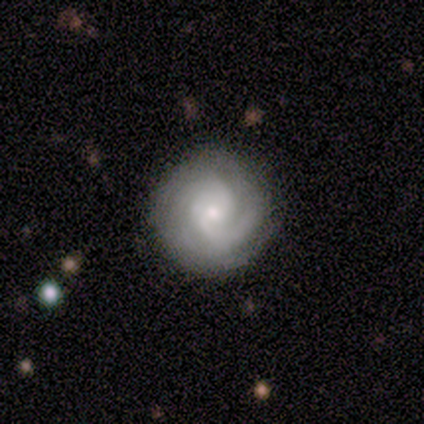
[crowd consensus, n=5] Smooth or featured: featured or disk — 100%
Edge-on disk: no — 100%
Bar: no — 100%
Spiral arms: yes — 100%
Spiral winding: tight — 60% (medium — 40%)
Spiral arm count: 2 — 40% (tied with can't tell — 40%)
Bulge size: small — 60% (moderate — 40%)
Merging: none — 100%